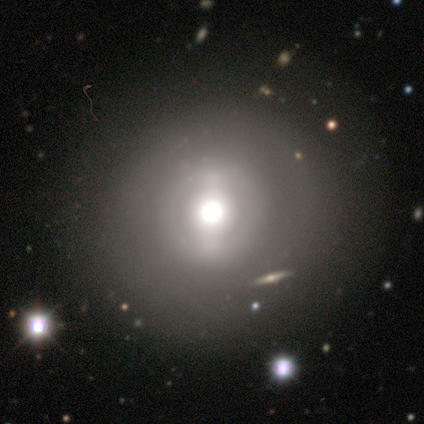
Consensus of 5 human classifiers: Overall: smooth (40%, tied with star or artifact). How rounded: round (100%). Merging: none (67%; minor disturbance 33%).